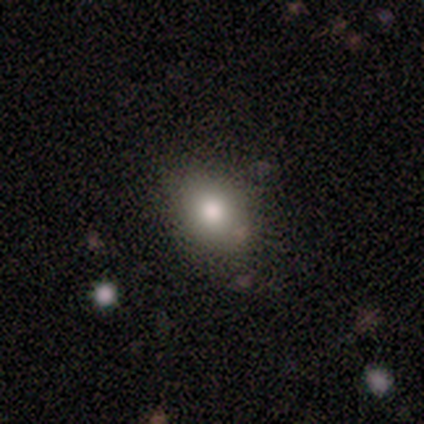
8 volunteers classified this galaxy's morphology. Overall: smooth (100%). How rounded: round (62%; in between 38%). Merging: none (88%).